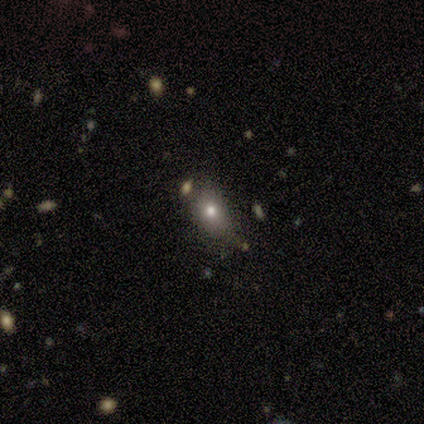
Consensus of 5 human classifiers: smooth 80%, star or artifact 20%, featured or disk 0%. Down the decision tree: how rounded — round (50%, tied with in between); merging — none (50%, tied with minor disturbance).